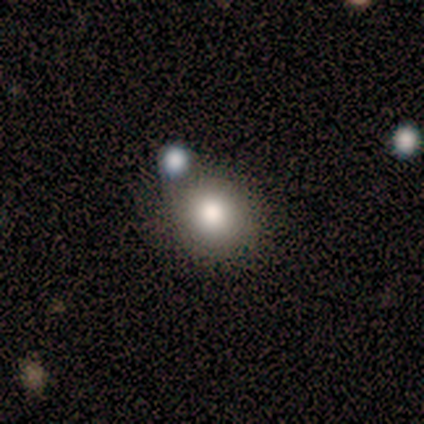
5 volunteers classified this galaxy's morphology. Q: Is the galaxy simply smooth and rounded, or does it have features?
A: smooth — 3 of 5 (60%).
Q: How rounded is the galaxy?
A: round — 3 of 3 (100%).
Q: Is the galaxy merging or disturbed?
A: none — 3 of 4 (75%).